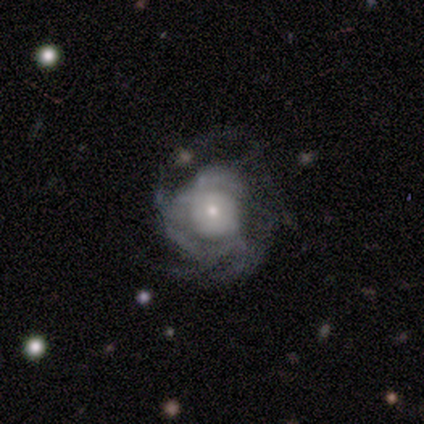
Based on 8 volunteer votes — featured or disk 88%, smooth 12%, star or artifact 0%. Down the decision tree: edge-on disk — no (100%); bar — no (71%); spiral arms — yes (71%); spiral arm count — can't tell (40%); spiral winding — tight (60%); bulge size — moderate (43%, tied with small); merging — major disturbance (50%).